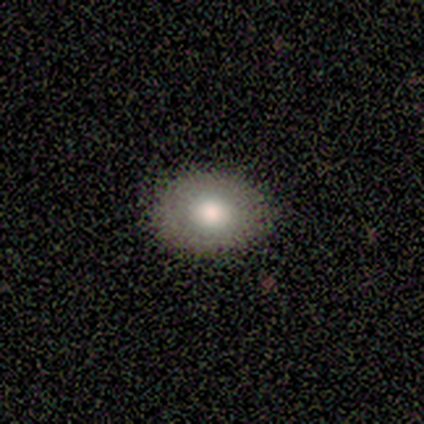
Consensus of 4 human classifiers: Morphology: type=smooth (100%); roundness=in between (75%); merging=none (75%).